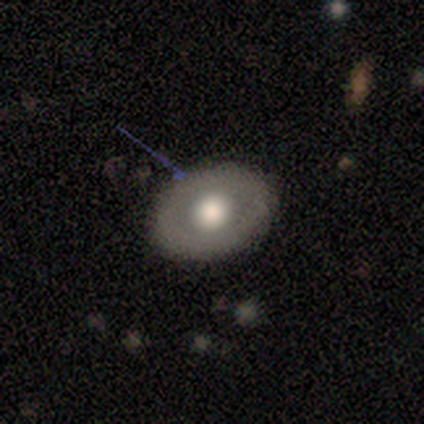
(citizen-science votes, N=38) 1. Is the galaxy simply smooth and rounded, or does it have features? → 55% smooth, 37% featured or disk, 8% star or artifact.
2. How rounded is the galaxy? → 62% round, 38% in between, 0% cigar-shaped.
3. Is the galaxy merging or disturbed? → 86% none, 11% minor disturbance, 3% major disturbance, 0% merger.